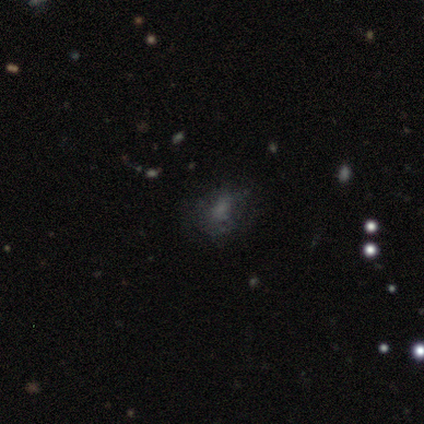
Morphology: type=smooth (67%); roundness=round (50%, tied with in between); merging=minor disturbance (100%).